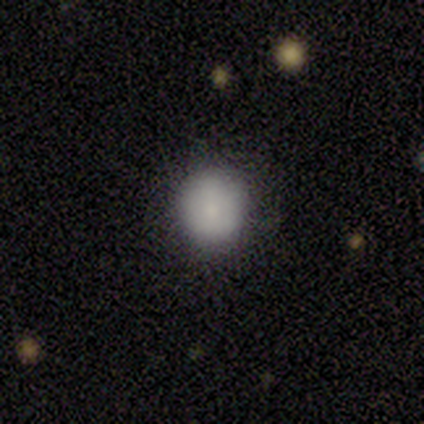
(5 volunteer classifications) A smooth galaxy with no disk features (100%) that is round (80%).

Vote fractions:
- Smooth or featured? smooth: 100% / featured or disk: 0% / star or artifact: 0%
- How rounded? round: 80% / in between: 20% / cigar-shaped: 0%
- Merging? none: 80% / minor disturbance: 20% / major disturbance: 0% / merger: 0%